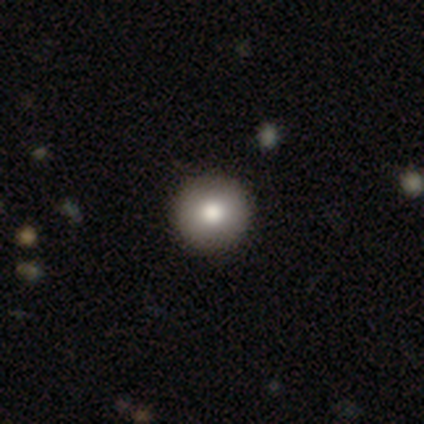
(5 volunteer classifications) Smooth or featured? smooth (80%)
How rounded? round (100%)
Merging? none (80%)